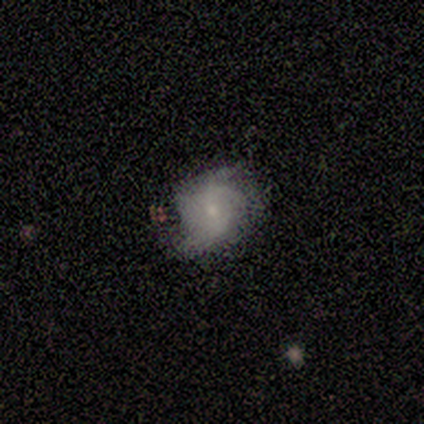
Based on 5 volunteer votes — A smooth galaxy with no disk features (40%, tied with featured or disk) that is round (100%). Merging: none (50%).